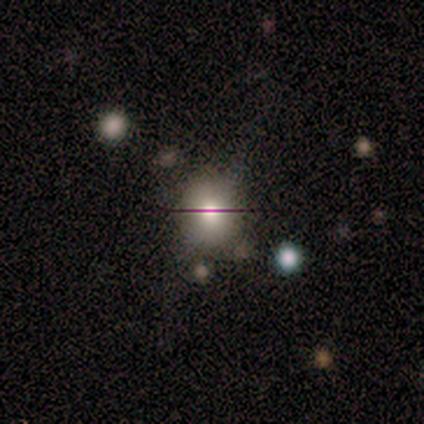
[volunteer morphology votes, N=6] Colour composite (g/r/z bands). It shows a smooth galaxy with no disk features (67%) that is round (75%). Merging: none (80%).